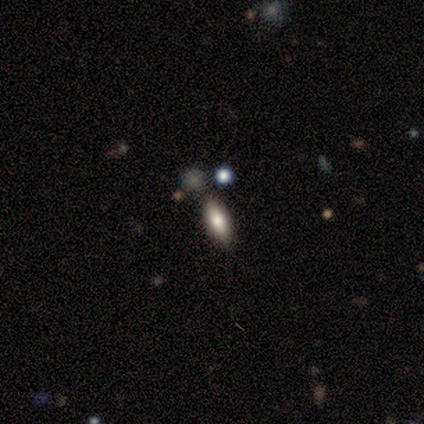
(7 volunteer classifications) A smooth galaxy with no disk features (86%) that is in between round and cigar-shaped (67%). Merging: none (67%).